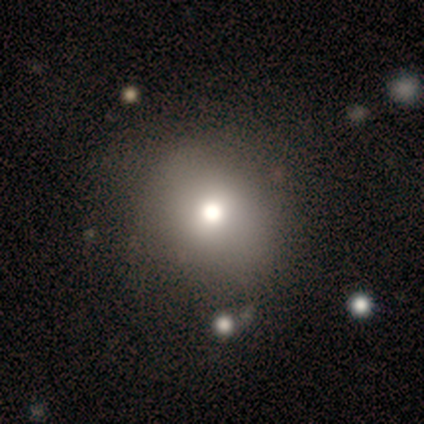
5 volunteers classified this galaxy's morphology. This appears to be a smooth galaxy with no disk features (80%) that is round (75%). Merging: merger (50%).